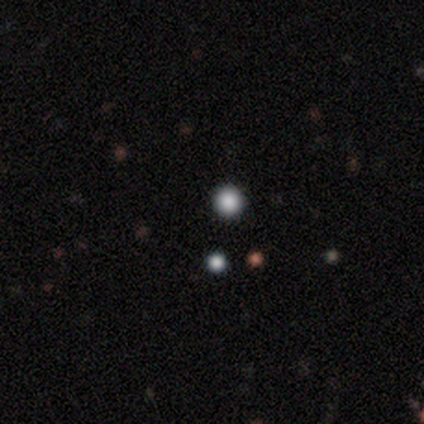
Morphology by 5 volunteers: type=smooth (60%); roundness=round (100%); merging=none (100%).